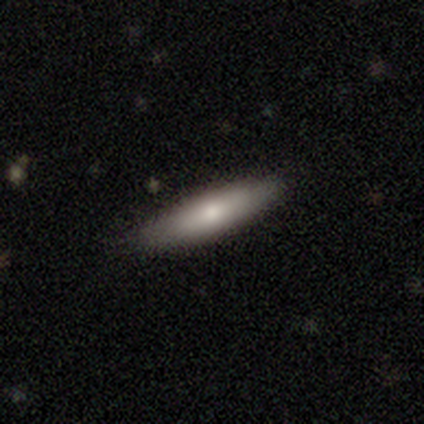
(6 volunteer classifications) Overall: smooth (50%; star or artifact 33%). How rounded: cigar-shaped (67%; in between 33%). Merging: none (100%).